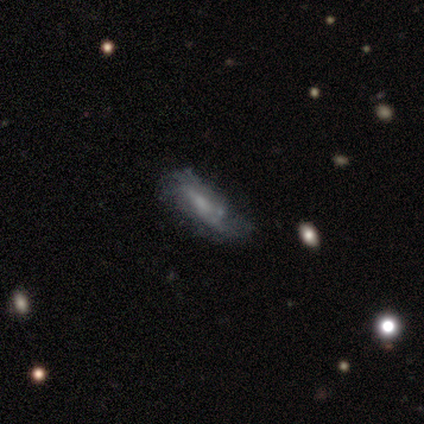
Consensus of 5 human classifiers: smooth-or-featured: smooth: 60% | featured or disk: 40% | star or artifact: 0%
  how-rounded: in between: 67% | cigar-shaped: 33% | round: 0%
  merging: none: 60% | minor disturbance: 40% | major disturbance: 0% | merger: 0%